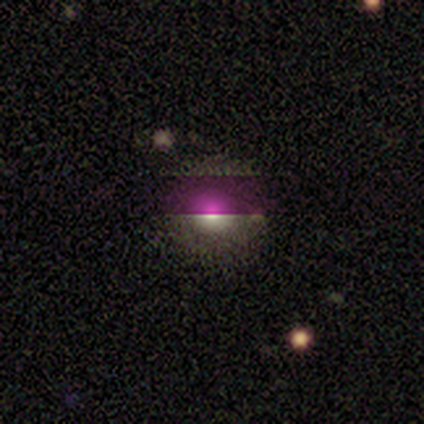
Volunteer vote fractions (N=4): smooth-or-featured: star or artifact: 75% | smooth: 25% | featured or disk: 0%